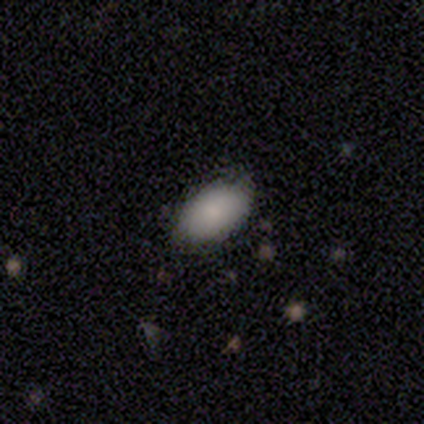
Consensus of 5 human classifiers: smooth 80%, featured or disk 20%, star or artifact 0%. Down the decision tree: how rounded — in between (100%); merging — none (60%).